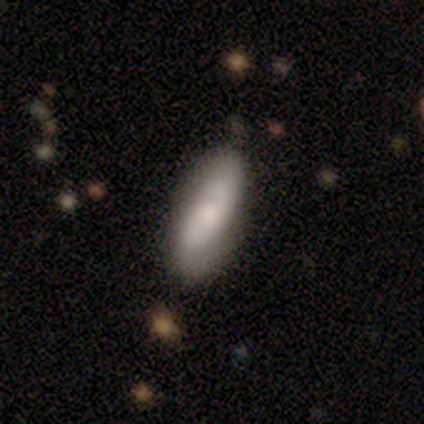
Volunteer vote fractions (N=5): Smooth or featured? smooth (80%)
How rounded? in between (50%, tied with cigar-shaped)
Merging? none (80%)